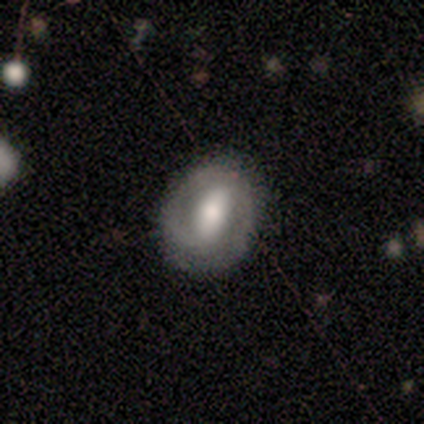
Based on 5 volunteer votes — Smooth or featured?
  - smooth: 60% *
  - featured or disk: 40%
  - star or artifact: 0%
How rounded?
  - in between: 67% *
  - round: 33%
  - cigar-shaped: 0%
Merging?
  - none: 80% *
  - minor disturbance: 20%
  - major disturbance: 0%
  - merger: 0%